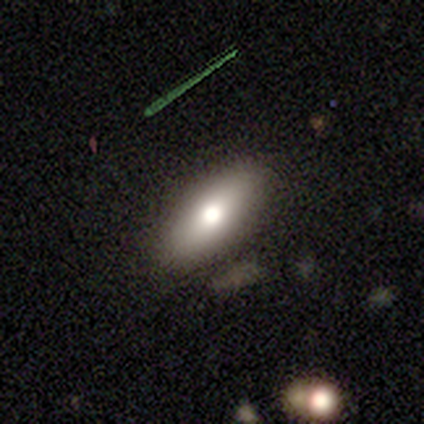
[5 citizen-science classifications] A smooth galaxy with no disk features (80%) that is in between round and cigar-shaped (75%).

Vote fractions:
- Smooth or featured? smooth: 80% / star or artifact: 20% / featured or disk: 0%
- How rounded? in between: 75% / cigar-shaped: 25% / round: 0%
- Merging? none: 75% / minor disturbance: 25% / major disturbance: 0% / merger: 0%